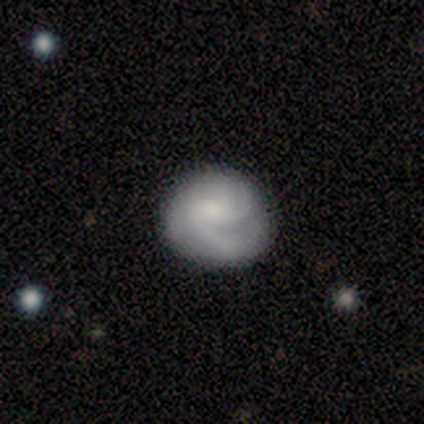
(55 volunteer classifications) smooth_or_featured: featured or disk (p=0.73) [alt: smooth p=0.22]
disk_edge_on: no (p=1.00)
bar: no (p=0.70) [alt: weak p=0.30]
has_spiral_arms: yes (p=0.93) [alt: no p=0.07]
spiral_winding: tight (p=0.46) [tied with: medium p=0.46]
spiral_arm_count: can't tell (p=0.32) [alt: 3 p=0.30]
bulge_size: moderate (p=0.45) [alt: small p=0.33]
merging: none (p=0.58) [alt: minor disturbance p=0.29]